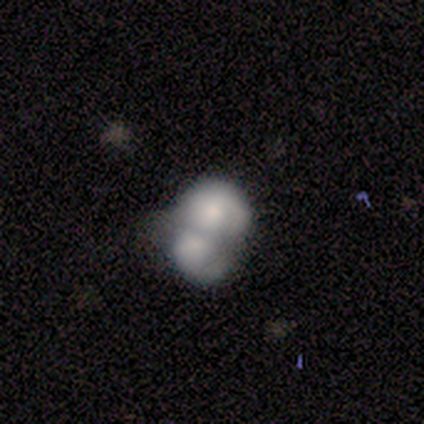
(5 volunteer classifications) Smooth or featured? smooth (60%)
How rounded? in between (67%)
Merging? merger (100%)